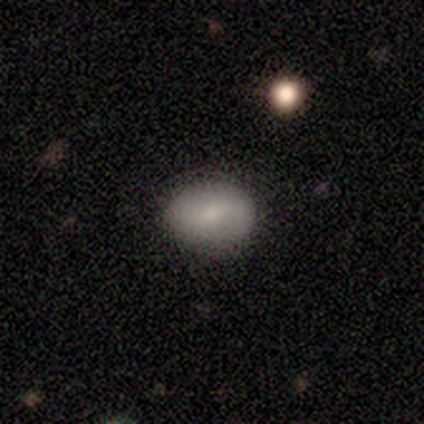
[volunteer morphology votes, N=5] smooth_or_featured: smooth (p=0.60) [alt: featured or disk p=0.40]
how_rounded: in between (p=0.67) [alt: round p=0.33]
merging: none (p=0.80) [alt: minor disturbance p=0.20]